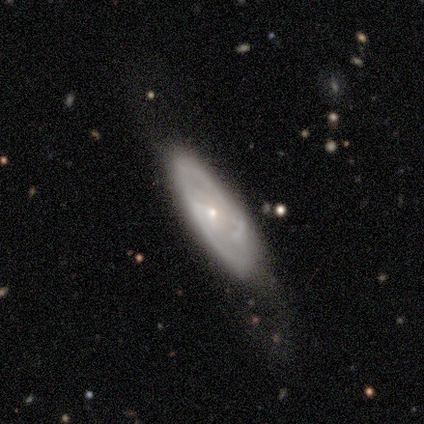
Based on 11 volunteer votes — Q: Smooth or featured?
A: featured or disk (82%); runner-up: smooth (9%)
Q: Edge-on disk?
A: no (78%); runner-up: yes (22%)
Q: Bar?
A: no (43%); runner-up: strong (29%)
Q: Spiral arms?
A: no (71%); runner-up: yes (29%)
Q: Bulge size?
A: small (100%)
Q: Merging?
A: none (60%); runner-up: minor disturbance (30%)